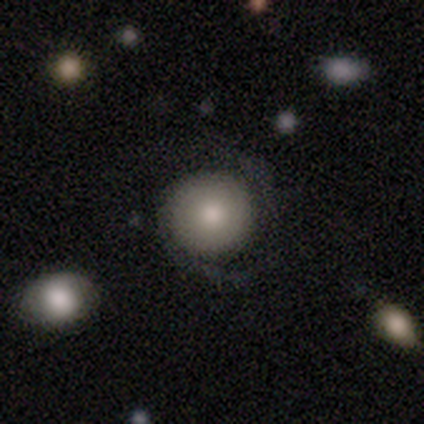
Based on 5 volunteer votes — Volunteers were most divided on "smooth or featured": featured or disk: 60%, smooth: 40%, star or artifact: 0%. More confident: edge-on disk — no (100%); bar — no (100%); spiral arms — yes (100%); merging — none (80%); spiral winding — tight (67%); spiral arm count — 2 (67%); bulge size — moderate (67%).